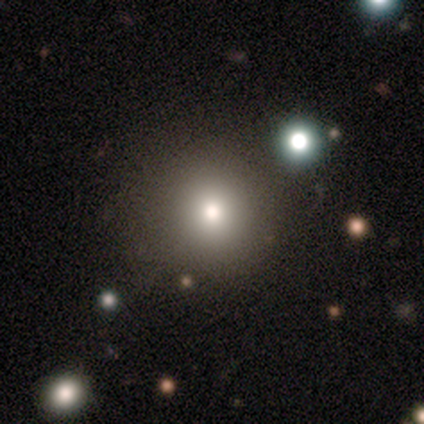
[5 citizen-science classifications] smooth-or-featured: smooth: 60% | star or artifact: 40% | featured or disk: 0%
  how-rounded: round: 100% | in between: 0% | cigar-shaped: 0%
  merging: none: 67% | minor disturbance: 33% | major disturbance: 0% | merger: 0%